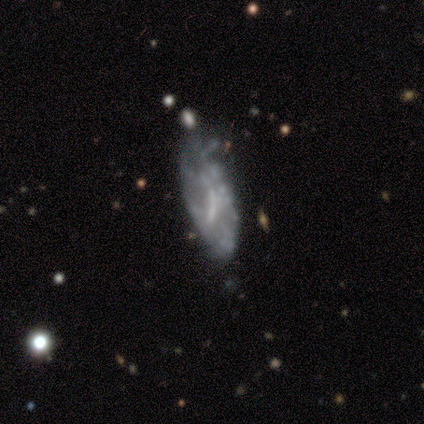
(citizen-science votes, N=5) Smooth or featured? featured or disk (80%)
Edge-on disk? no (100%)
Bar? no (75%)
Spiral arms? no (100%)
Bulge size? none (100%)
Merging? none (50%)